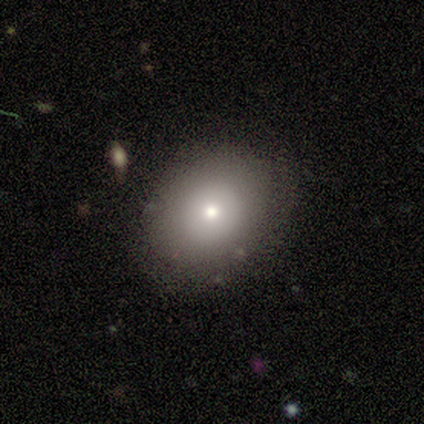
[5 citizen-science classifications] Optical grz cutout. It shows a smooth galaxy with no disk features (100%) that is round (80%). Merging: none (100%).